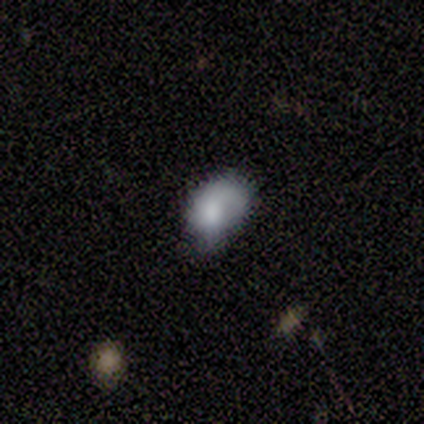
Smooth or featured? smooth (75%)
How rounded? in between (100%)
Merging? none (75%)